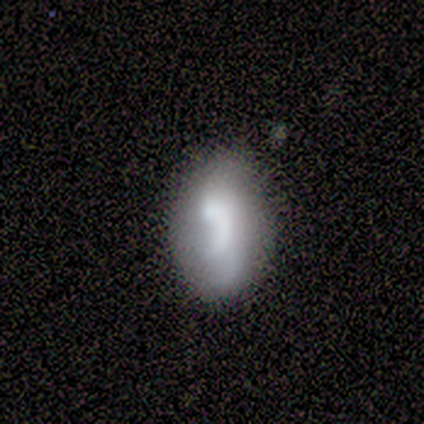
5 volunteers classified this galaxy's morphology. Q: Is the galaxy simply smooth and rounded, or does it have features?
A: smooth — 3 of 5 (60%).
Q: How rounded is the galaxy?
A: in between — 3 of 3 (100%).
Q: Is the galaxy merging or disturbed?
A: none — 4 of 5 (80%).